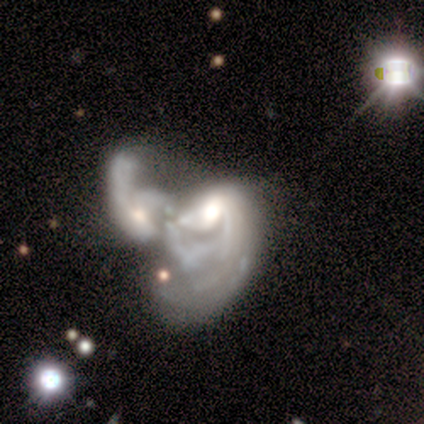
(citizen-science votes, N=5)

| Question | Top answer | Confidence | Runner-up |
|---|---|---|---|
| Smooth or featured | featured or disk | 100% | — |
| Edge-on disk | no | 100% | — |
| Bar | no | 80% | weak (20%) |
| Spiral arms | yes | 100% | — |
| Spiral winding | loose | 100% | — |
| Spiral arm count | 1 | 40% | tied: can't tell (40%) |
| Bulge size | moderate | 80% | large (20%) |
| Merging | merger | 80% | none (20%) |